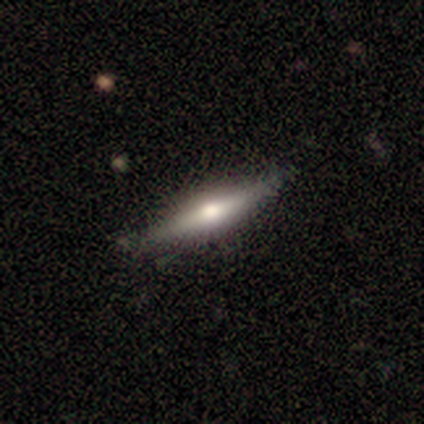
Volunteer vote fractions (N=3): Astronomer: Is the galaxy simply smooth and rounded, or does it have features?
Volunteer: featured or disk — 100%.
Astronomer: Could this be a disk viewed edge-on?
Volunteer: yes — 100%.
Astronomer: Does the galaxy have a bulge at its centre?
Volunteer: rounded — 100%.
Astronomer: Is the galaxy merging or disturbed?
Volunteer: none — 67%.